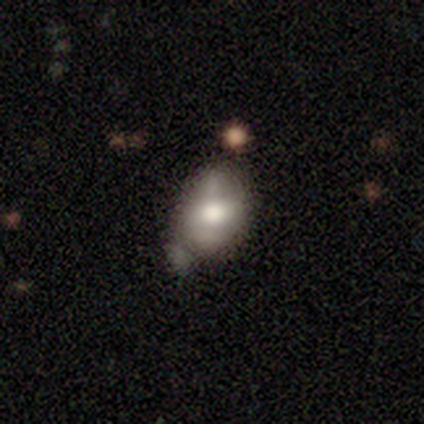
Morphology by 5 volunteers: This is likely a smooth galaxy (60%). How rounded: clearly in between (100%). Merging: clearly minor disturbance (80%).